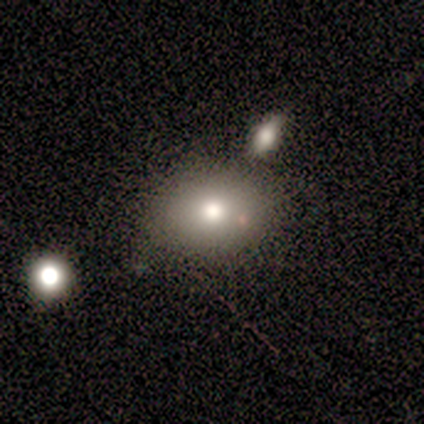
Smooth or featured? 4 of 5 (80%) said smooth. How rounded? 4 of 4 (100%) said in between. Merging? 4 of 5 (80%) said none.